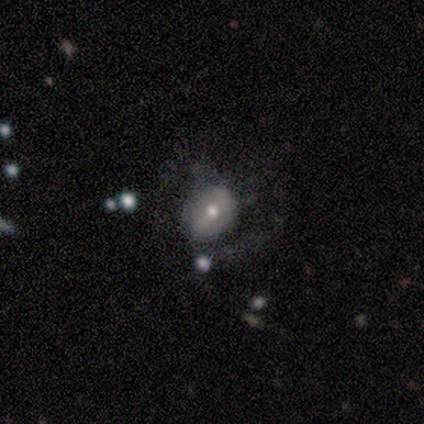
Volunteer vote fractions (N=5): Smooth or featured? smooth (60%)
How rounded? in between (67%)
Merging? none (60%)